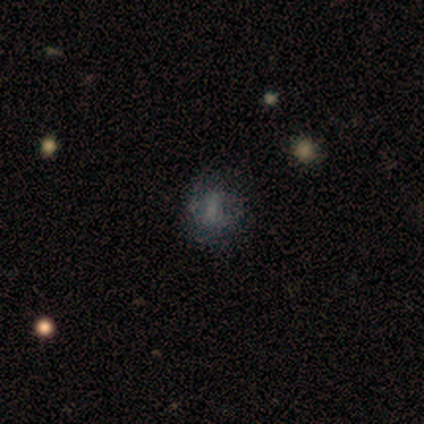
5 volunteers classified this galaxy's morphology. Smooth or featured? 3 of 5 (60%) said smooth. How rounded? 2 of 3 (67%) said round. Merging? 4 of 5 (80%) said none.